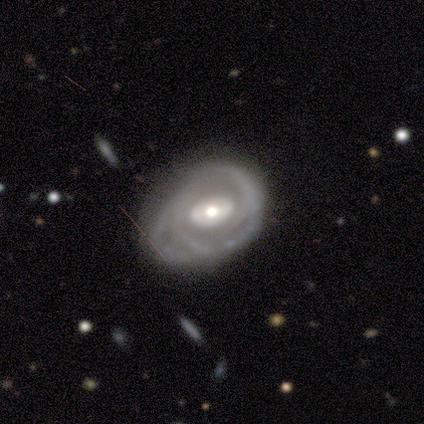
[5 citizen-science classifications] Smooth or featured?
  - featured or disk: 100% *
  - smooth: 0%
  - star or artifact: 0%
Edge-on disk?
  - no: 100% *
  - yes: 0%
Bar?
  - no: 80% *
  - weak: 20%
  - strong: 0%
Spiral arms?
  - yes: 60% *
  - no: 40%
Spiral winding?
  - tight: 67% *
  - loose: 33%
  - medium: 0%
Spiral arm count?
  - can't tell: 67% *
  - 1: 33%
  - 2: 0%
  - 3: 0%
  - 4: 0%
  - more than 4: 0%
Bulge size?
  - moderate: 100% *
  - dominant: 0%
  - large: 0%
  - small: 0%
  - none: 0%
Merging?
  - none: 60% *
  - major disturbance: 40%
  - minor disturbance: 0%
  - merger: 0%